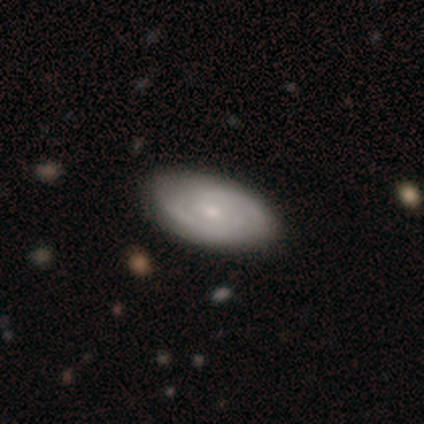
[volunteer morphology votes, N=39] Overall: featured or disk (64%; smooth 28%). Edge-on disk: no (96%). Bar: no (67%; weak 29%). Spiral arms: yes (92%). Spiral arm count: 2 (64%). Spiral winding: tight (59%; medium 41%). Bulge size: small (67%). Merging: none (58%).